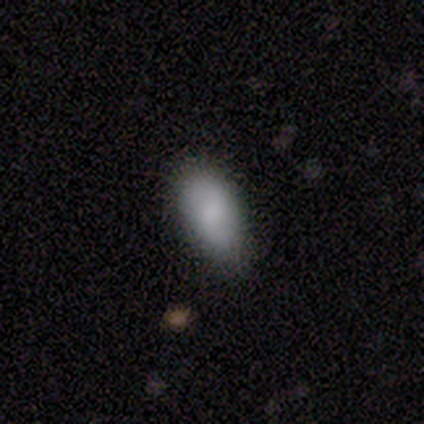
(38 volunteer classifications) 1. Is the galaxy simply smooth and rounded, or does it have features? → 87% smooth, 11% featured or disk, 3% star or artifact.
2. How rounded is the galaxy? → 97% in between, 3% cigar-shaped, 0% round.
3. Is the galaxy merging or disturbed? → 70% none, 24% minor disturbance, 5% merger, 0% major disturbance.